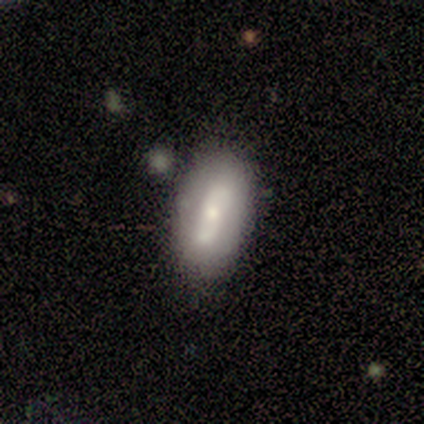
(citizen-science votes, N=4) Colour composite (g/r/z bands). It shows a smooth galaxy with no disk features (50%) that is in between round and cigar-shaped (100%). Merging: none (67%).